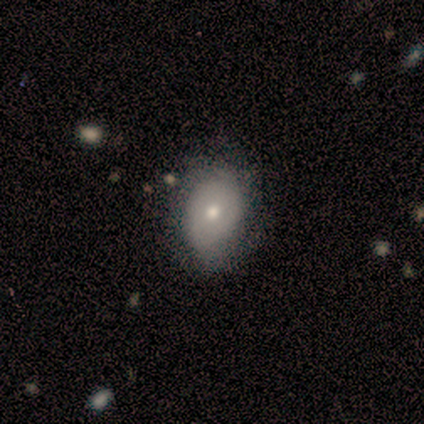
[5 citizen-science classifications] Q: Smooth or featured?
A: smooth (60%); runner-up: featured or disk (20%)
Q: How rounded?
A: in between (100%)
Q: Merging?
A: none (50%); runner-up: minor disturbance (25%)